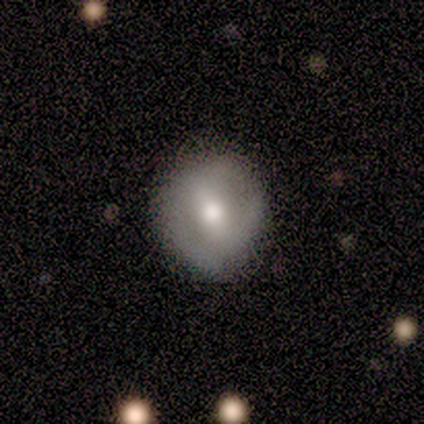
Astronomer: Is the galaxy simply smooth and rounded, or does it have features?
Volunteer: featured or disk — 71%.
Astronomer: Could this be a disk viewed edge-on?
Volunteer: no — 100%.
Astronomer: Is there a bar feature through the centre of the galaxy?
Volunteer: strong — 40%, tied with weak at 40%.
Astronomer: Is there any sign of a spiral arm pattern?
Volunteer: no — 60% (runner-up: yes, 40%).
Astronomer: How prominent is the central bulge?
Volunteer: moderate — 60%.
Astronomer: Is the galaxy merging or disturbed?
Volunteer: none — 100%.